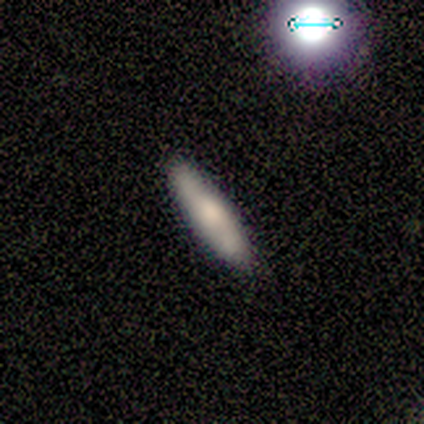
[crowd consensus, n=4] A smooth galaxy with no disk features (75%) that is in between round and cigar-shaped (67%). Merging: none (100%).